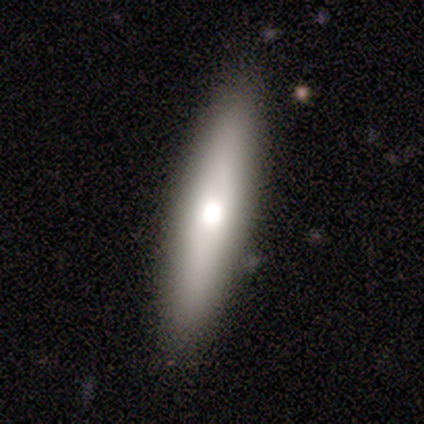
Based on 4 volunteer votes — Smooth or featured? 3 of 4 (75%) said smooth. How rounded? 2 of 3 (67%) said cigar-shaped. Merging? 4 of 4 (100%) said none.